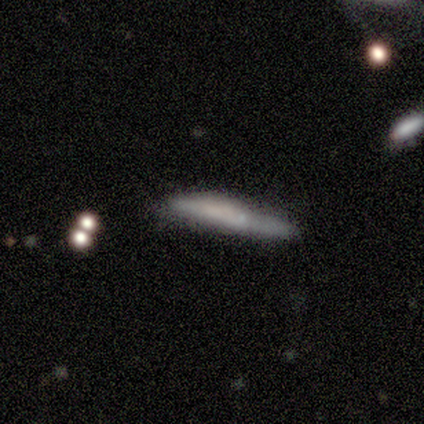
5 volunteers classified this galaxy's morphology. A smooth galaxy with no disk features (60%) that is cigar-shaped (100%). Merging: none (80%).